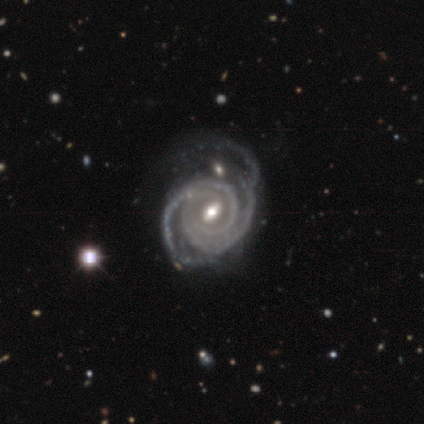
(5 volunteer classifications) A featured or disk galaxy (100%) with a weak bar (60%), 2 (40%, tied with 3) tight (100%) spiral arms (100%) and a moderate central bulge (80%).

Vote fractions:
- Smooth or featured? featured or disk: 100% / smooth: 0% / star or artifact: 0%
- Edge-on disk? no: 100% / yes: 0%
- Bar? weak: 60% / strong: 40% / no: 0%
- Spiral arms? yes: 100% / no: 0%
- Spiral winding? tight: 100% / medium: 0% / loose: 0%
- Spiral arm count? 2: 40% (tied) / 3: 40% (tied) / can't tell: 20% / 1: 0% / 4: 0% / more than 4: 0%
- Bulge size? moderate: 80% / small: 20% / dominant: 0% / large: 0% / none: 0%
- Merging? major disturbance: 60% / none: 40% / minor disturbance: 0% / merger: 0%